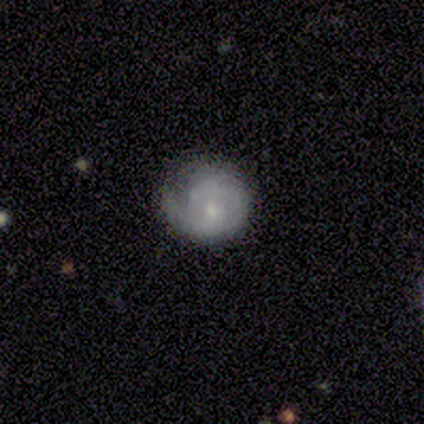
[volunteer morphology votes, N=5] smooth-or-featured: featured or disk: 60% | smooth: 20% | star or artifact: 20%
  disk-edge-on: no: 100% | yes: 0%
    bar: weak: 100% | strong: 0% | no: 0%
    has-spiral-arms: yes: 67% | no: 33%
      spiral-winding: tight: 100% | medium: 0% | loose: 0%
      spiral-arm-count: 1: 50% (tied) | 2: 50% (tied) | 3: 0% | 4: 0% | more than 4: 0% | can't tell: 0%
    bulge-size: small: 100% | dominant: 0% | large: 0% | moderate: 0% | none: 0%
  merging: minor disturbance: 50% | none: 25% | major disturbance: 25% | merger: 0%